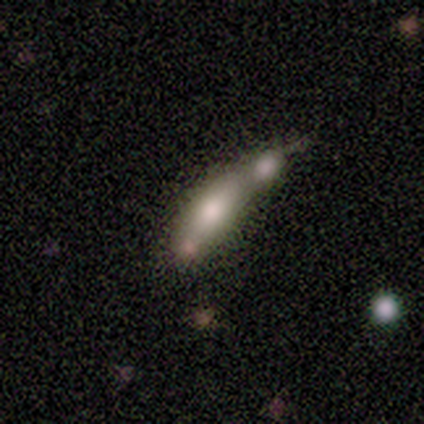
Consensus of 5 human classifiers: This appears to be a smooth galaxy with no disk features (60%) that is in between round and cigar-shaped (100%). Merging: merger (60%).